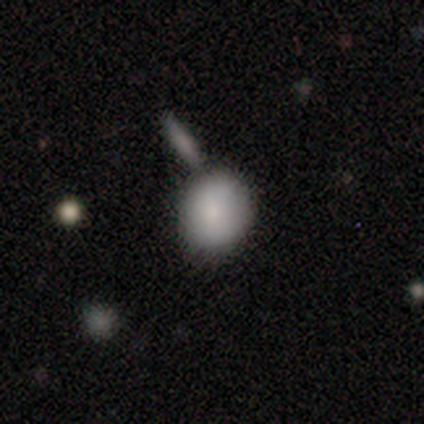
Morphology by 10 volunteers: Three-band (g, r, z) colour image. It shows a smooth galaxy with no disk features (80%) that is round (88%). Merging: none (60%).